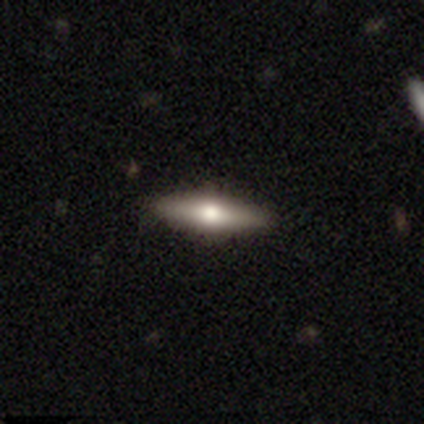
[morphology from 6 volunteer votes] Q: Smooth or featured?
A: smooth (67%); runner-up: featured or disk (33%)
Q: How rounded?
A: cigar-shaped (100%)
Q: Merging?
A: none (100%)